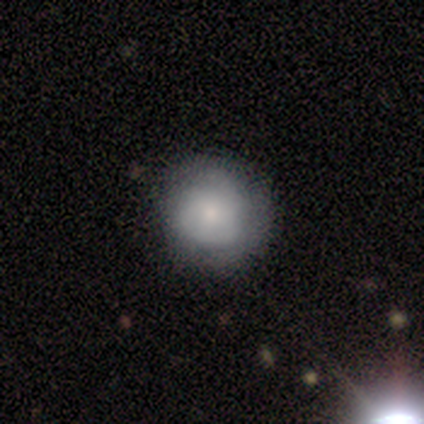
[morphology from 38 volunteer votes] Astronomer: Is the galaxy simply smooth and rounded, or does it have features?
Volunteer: smooth — 61%.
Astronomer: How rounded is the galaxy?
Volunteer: round — 91%.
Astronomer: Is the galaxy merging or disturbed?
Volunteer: none — 58%.